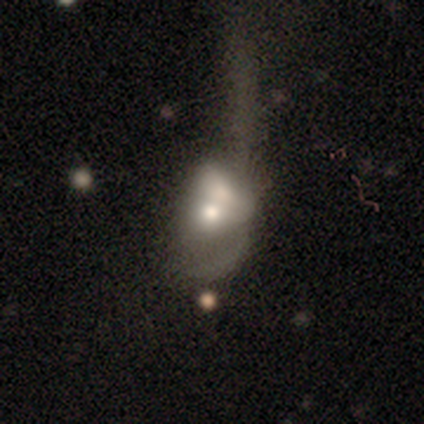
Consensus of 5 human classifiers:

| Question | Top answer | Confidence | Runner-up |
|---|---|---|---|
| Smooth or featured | smooth | 60% | featured or disk (40%) |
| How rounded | in between | 67% | round (33%) |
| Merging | merger | 80% | major disturbance (20%) |